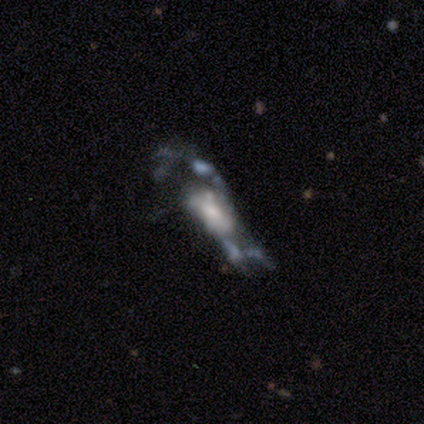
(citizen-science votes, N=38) Smooth or featured?
  - featured or disk: 79% *
  - smooth: 11%
  - star or artifact: 11%
Edge-on disk?
  - no: 90% *
  - yes: 10%
Bar?
  - no: 74% *
  - weak: 19%
  - strong: 7%
Spiral arms?
  - no: 56% *
  - yes: 44%
Bulge size?
  - moderate: 41% *
  - small: 26%
  - large: 22%
  - dominant: 7%
  - none: 4%
Merging?
  - major disturbance: 38% *
  - none: 21%
  - minor disturbance: 21%
  - merger: 21%